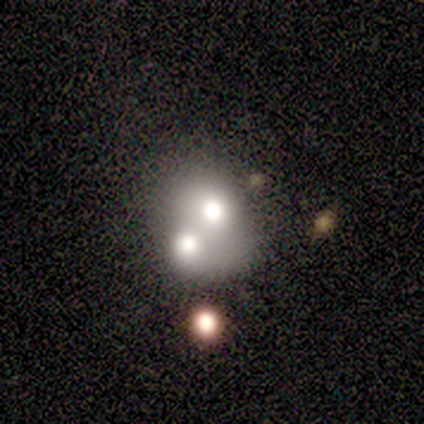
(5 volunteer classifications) Q: Smooth or featured?
A: smooth (100%)
Q: How rounded?
A: in between (80%); runner-up: round (20%)
Q: Merging?
A: merger (100%)